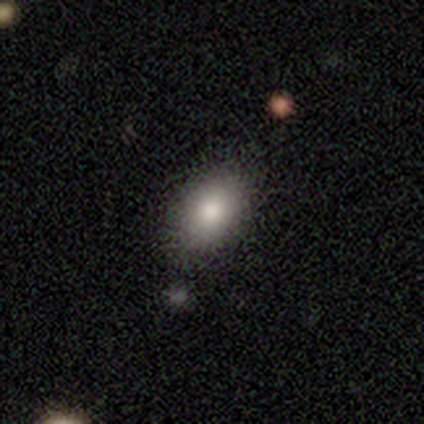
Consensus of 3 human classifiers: Smooth or featured? 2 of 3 (67%) said smooth. How rounded? 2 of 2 (100%) said in between. Merging? 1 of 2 (50%, tied with minor disturbance) said none.